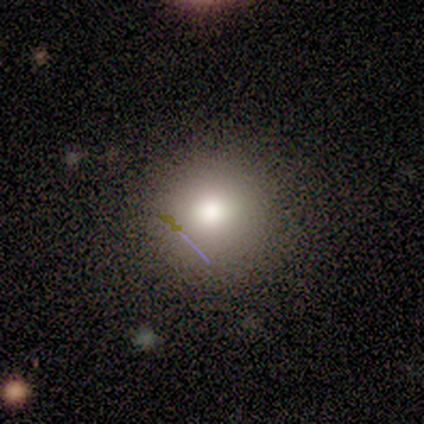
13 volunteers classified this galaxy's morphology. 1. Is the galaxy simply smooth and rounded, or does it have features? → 77% smooth, 23% star or artifact, 0% featured or disk.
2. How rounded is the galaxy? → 90% round, 10% in between, 0% cigar-shaped.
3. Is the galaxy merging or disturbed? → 70% none, 20% minor disturbance, 10% major disturbance, 0% merger.